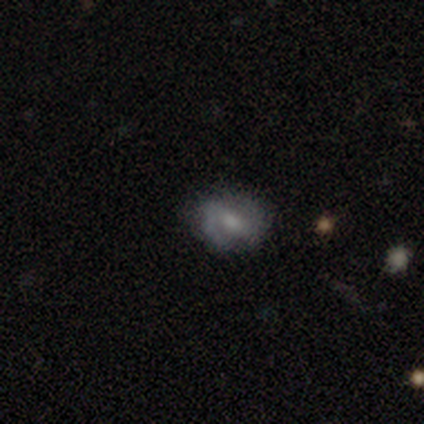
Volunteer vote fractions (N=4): featured or disk 75%, smooth 25%, star or artifact 0%. Down the decision tree: edge-on disk — no (100%); bar — weak (100%); spiral arms — yes (100%); spiral arm count — 2 (100%); spiral winding — medium (67%); bulge size — small (67%); merging — none (100%).